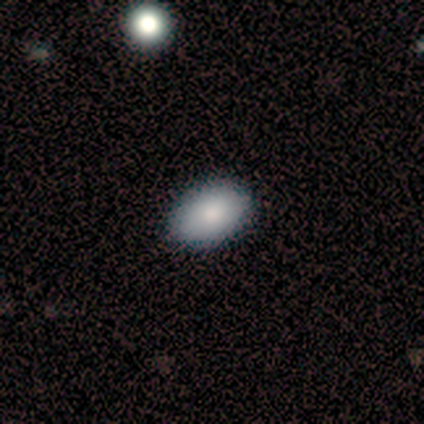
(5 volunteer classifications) Smooth or featured: smooth — 100%
How rounded: in between — 100%
Merging: none — 100%